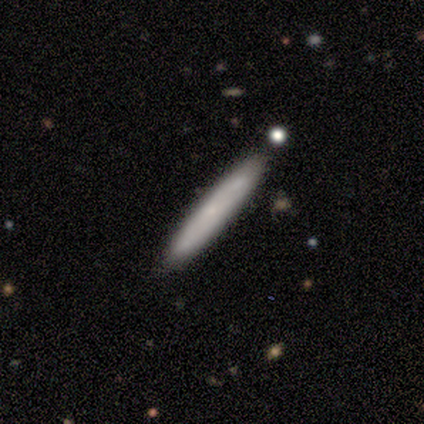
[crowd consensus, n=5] smooth-or-featured: smooth: 60% | featured or disk: 40% | star or artifact: 0%
  how-rounded: cigar-shaped: 100% | round: 0% | in between: 0%
  merging: none: 100% | minor disturbance: 0% | major disturbance: 0% | merger: 0%